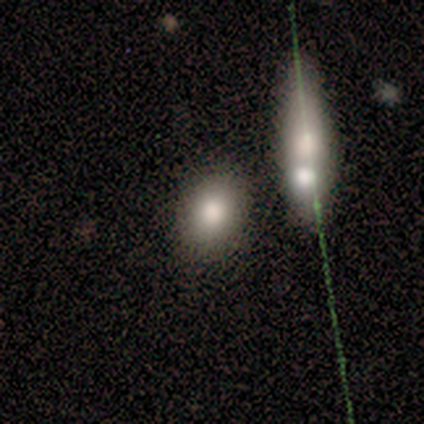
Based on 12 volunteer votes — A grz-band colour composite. It shows a smooth galaxy with no disk features (83%) that is round (60%). Merging: none (91%).